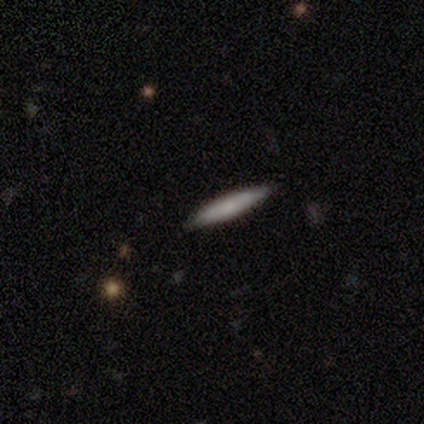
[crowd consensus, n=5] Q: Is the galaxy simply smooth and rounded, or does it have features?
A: smooth — 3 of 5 (60%).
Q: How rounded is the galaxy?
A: cigar-shaped — 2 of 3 (67%).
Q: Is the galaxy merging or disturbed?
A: none — 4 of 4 (100%).